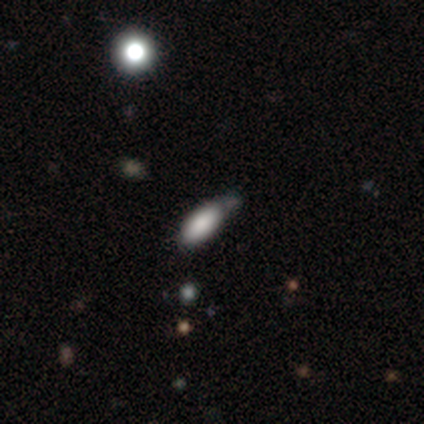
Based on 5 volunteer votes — Overall: smooth (80%). How rounded: in between (75%). Merging: none (60%; minor disturbance 20%).